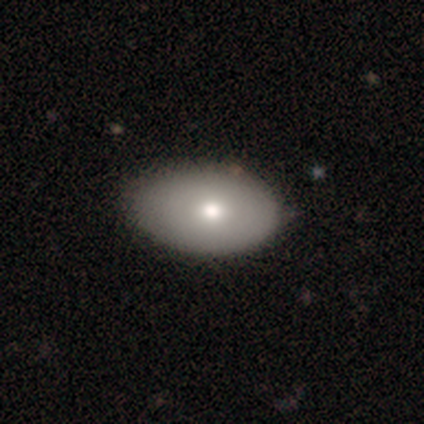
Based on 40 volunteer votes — smooth-or-featured: smooth: 82% | featured or disk: 18% | star or artifact: 0%
  how-rounded: in between: 100% | round: 0% | cigar-shaped: 0%
  merging: none: 50% | minor disturbance: 25% | major disturbance: 0% | merger: 0%